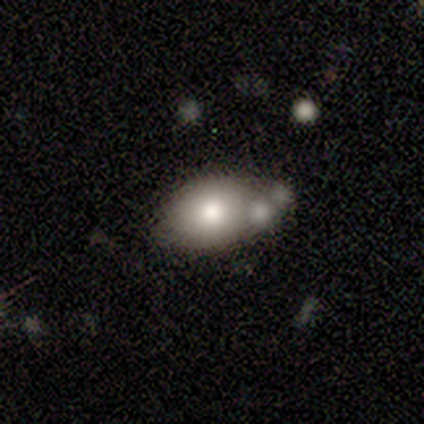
Overall: smooth (80%). How rounded: in between (100%). Merging: none (60%; minor disturbance 20%).